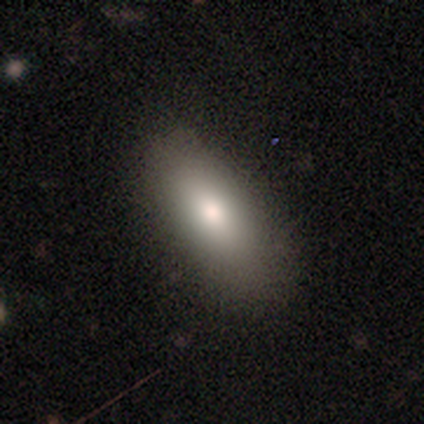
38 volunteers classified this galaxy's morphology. A smooth galaxy with no disk features (87%) that is in between round and cigar-shaped (85%). Merging: none (84%).